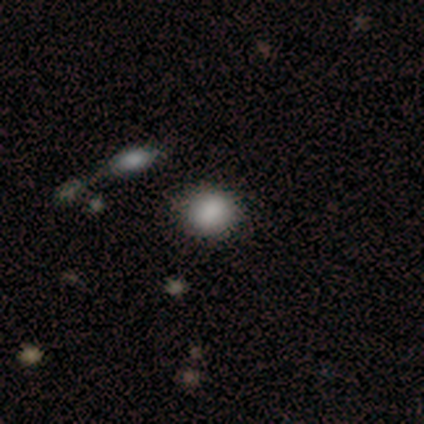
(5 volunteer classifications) Smooth or featured?
  - smooth: 100% *
  - featured or disk: 0%
  - star or artifact: 0%
How rounded?
  - round: 80% *
  - in between: 20%
  - cigar-shaped: 0%
Merging?
  - none: 80% *
  - minor disturbance: 20%
  - major disturbance: 0%
  - merger: 0%